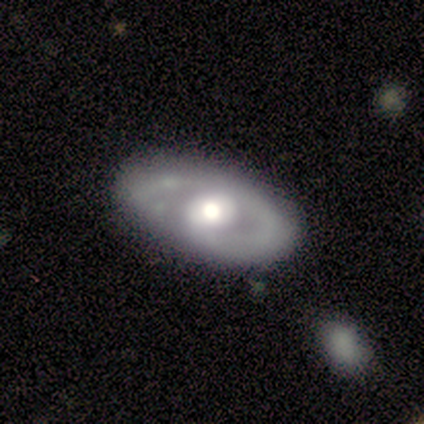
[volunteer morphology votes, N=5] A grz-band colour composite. It shows a featured or disk galaxy (100%) with a weak bar (40%, tied with no), 2 (50%) loose (50%) spiral arms (80%) and a moderate central bulge (80%). Merging: none (80%).